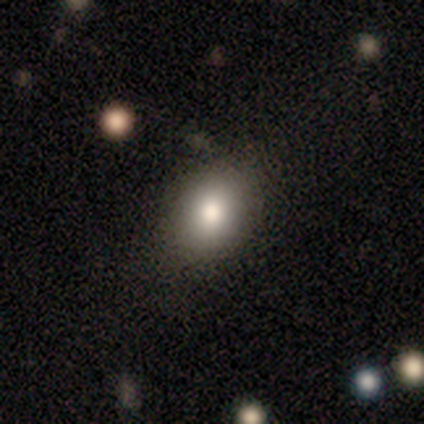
Volunteers were most divided on "how rounded": in between: 75%, round: 25%, cigar-shaped: 0%. More confident: merging — none (100%); smooth or featured — smooth (80%).